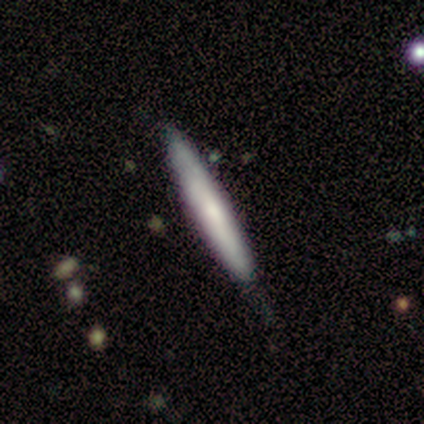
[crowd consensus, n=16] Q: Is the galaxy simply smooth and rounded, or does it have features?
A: smooth — 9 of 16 (56%).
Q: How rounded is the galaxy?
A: cigar-shaped — 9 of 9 (100%).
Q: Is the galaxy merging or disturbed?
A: none — 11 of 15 (73%).